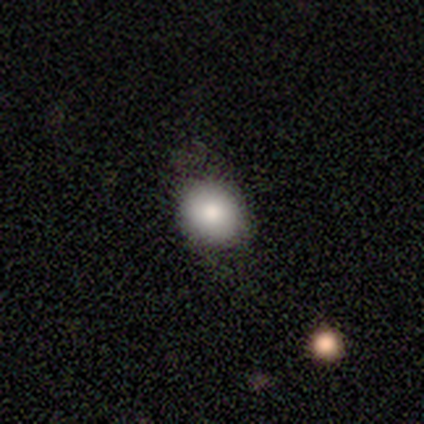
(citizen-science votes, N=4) smooth_or_featured: smooth (p=0.75) [alt: featured or disk p=0.25]
how_rounded: round (p=0.67) [alt: in between p=0.33]
merging: none (p=1.00)